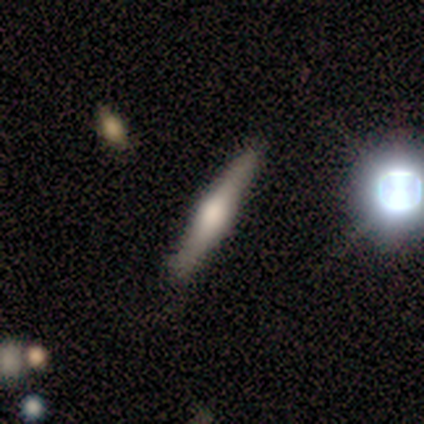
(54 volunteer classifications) A featured or disk galaxy (80%) viewed edge-on (100%) with a rounded central bulge (84%). Merging: none (75%).